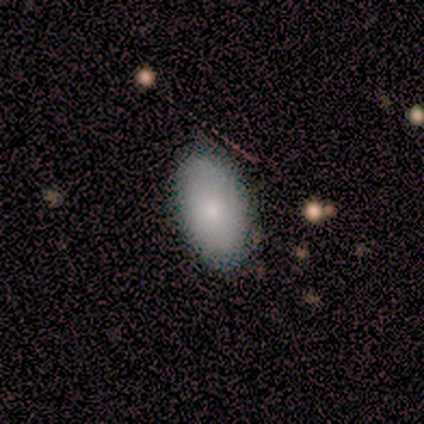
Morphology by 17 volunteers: Smooth or featured: smooth — 76% (featured or disk — 24%)
How rounded: in between — 100%
Merging: none — 76% (minor disturbance — 18%)